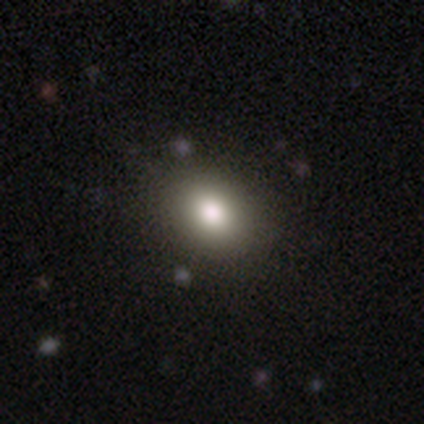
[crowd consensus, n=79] Overall: smooth (86%). How rounded: round (51%; in between 49%). Merging: none (43%; minor disturbance 4%).